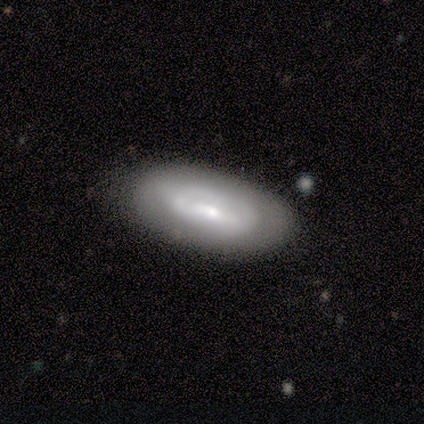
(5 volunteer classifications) This is likely a smooth galaxy (60%). How rounded: likely in between (67%). Merging: clearly none (100%).